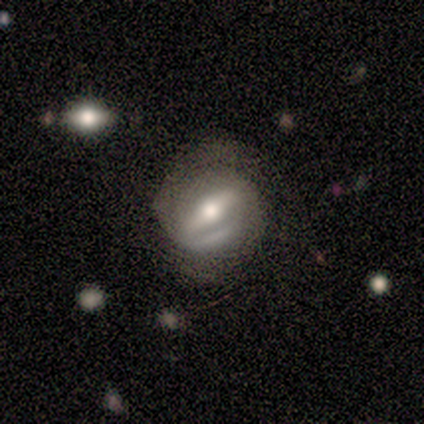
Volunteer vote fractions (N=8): This is likely a featured or disk galaxy (75%). It is clearly not viewed edge-on (100%). Bar: likely weak (67%). Spiral arm pattern: clearly yes (83%). Spiral arm count: marginally 1 (40%, tied with 2). Spiral winding: marginally tight (40%, tied with loose). Central bulge: clearly moderate (83%). Merging: possibly none (57%).